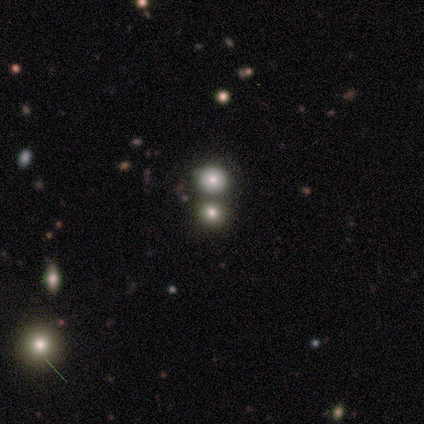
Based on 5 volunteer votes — Smooth or featured: smooth — 40% (tied with star or artifact — 40%)
How rounded: round — 50% (tied with in between — 50%)
Merging: none — 33% (tied with minor disturbance — 33%; merger — 33%)